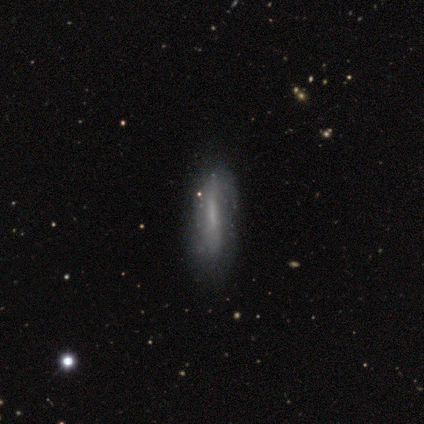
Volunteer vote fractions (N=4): Volunteers were most divided on "bar" (2-way tie): strong: 50%, weak: 50%, no: 0%; "spiral arms" (2-way tie): yes: 50%, no: 50%. More confident: spiral winding — medium (100%); spiral arm count — can't tell (100%); bulge size — small (100%); merging — none (100%); smooth or featured — featured or disk (75%); edge-on disk — no (67%).